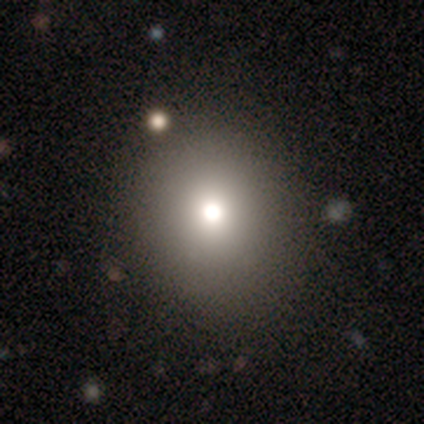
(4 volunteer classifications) Morphology: type=smooth (100%); roundness=round (75%); merging=none (75%).